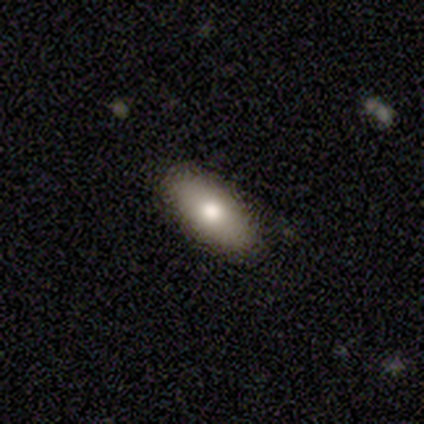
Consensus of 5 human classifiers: Overall: smooth (60%; star or artifact 40%). How rounded: in between (100%). Merging: none (100%).